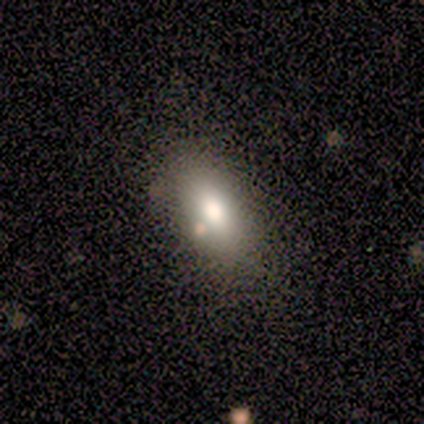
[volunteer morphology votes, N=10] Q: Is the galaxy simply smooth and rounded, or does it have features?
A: smooth — 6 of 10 (60%).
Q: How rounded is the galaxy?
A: in between — 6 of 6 (100%).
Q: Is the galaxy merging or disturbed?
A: none — 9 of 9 (100%).